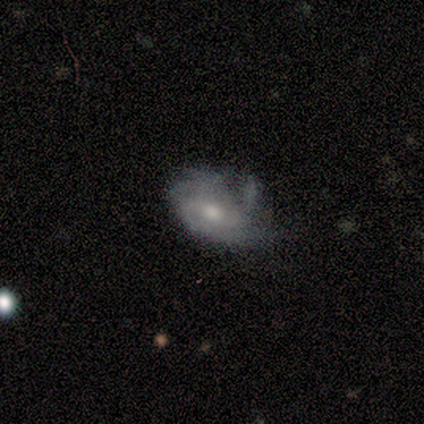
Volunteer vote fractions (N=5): Q: Smooth or featured?
A: featured or disk (80%); runner-up: smooth (20%)
Q: Edge-on disk?
A: no (100%)
Q: Bar?
A: no (100%)
Q: Spiral arms?
A: yes (75%); runner-up: no (25%)
Q: Spiral winding?
A: tight (100%)
Q: Spiral arm count?
A: 2 (33%); tied with: more than 4 (33%); can't tell (33%)
Q: Bulge size?
A: moderate (75%); runner-up: small (25%)
Q: Merging?
A: none (40%); tied with: minor disturbance (40%)